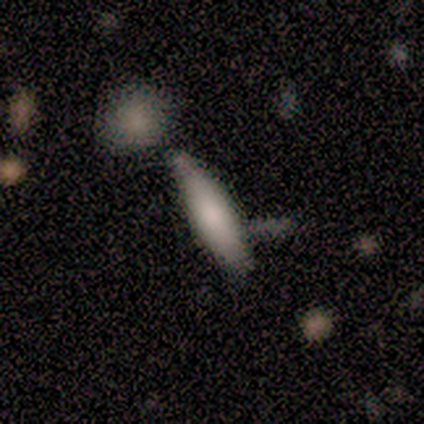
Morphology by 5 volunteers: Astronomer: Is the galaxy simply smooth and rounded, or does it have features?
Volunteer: smooth — 100%.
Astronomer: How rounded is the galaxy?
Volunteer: cigar-shaped — 60% (runner-up: in between, 40%).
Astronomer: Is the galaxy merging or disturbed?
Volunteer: none — 80%.